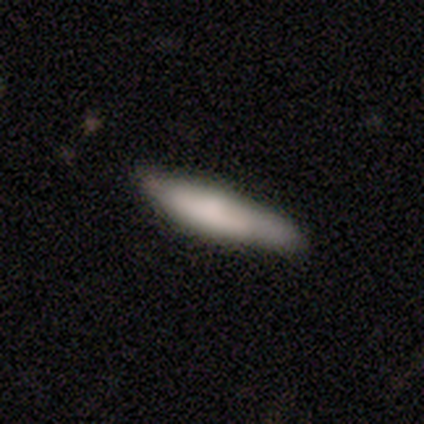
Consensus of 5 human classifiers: Q: Smooth or featured?
A: smooth (60%); runner-up: featured or disk (40%)
Q: How rounded?
A: cigar-shaped (100%)
Q: Merging?
A: minor disturbance (60%); runner-up: none (40%)